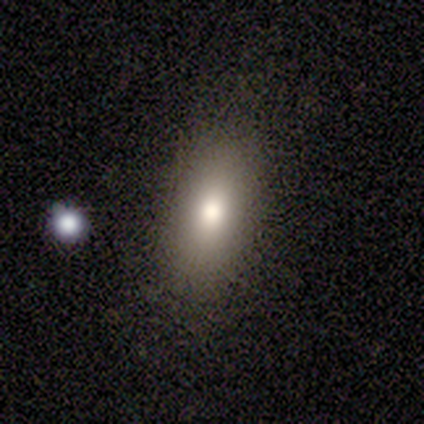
Overall: smooth (83%). How rounded: in between (60%; round 20%). Merging: none (80%).